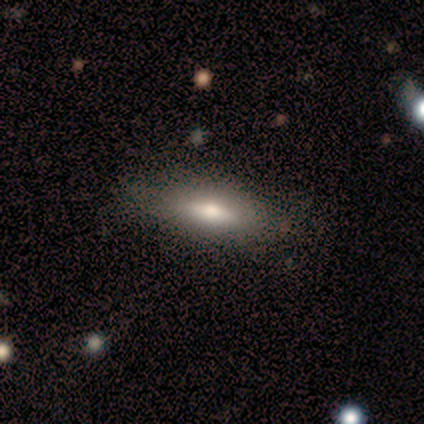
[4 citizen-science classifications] A smooth galaxy with no disk features (75%) that is in between round and cigar-shaped (100%). Merging: none (100%).